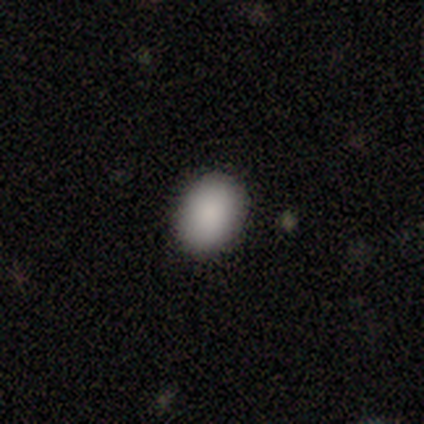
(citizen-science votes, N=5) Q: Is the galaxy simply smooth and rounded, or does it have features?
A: smooth — 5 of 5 (100%).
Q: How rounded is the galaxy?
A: in between — 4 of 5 (80%).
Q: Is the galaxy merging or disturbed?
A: none — 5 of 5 (100%).